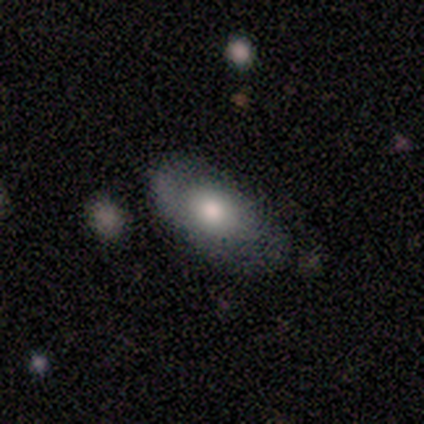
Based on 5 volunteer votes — Smooth or featured?
  - smooth: 80% *
  - featured or disk: 20%
  - star or artifact: 0%
How rounded?
  - in between: 100% *
  - round: 0%
  - cigar-shaped: 0%
Merging?
  - none: 80% *
  - minor disturbance: 20%
  - major disturbance: 0%
  - merger: 0%